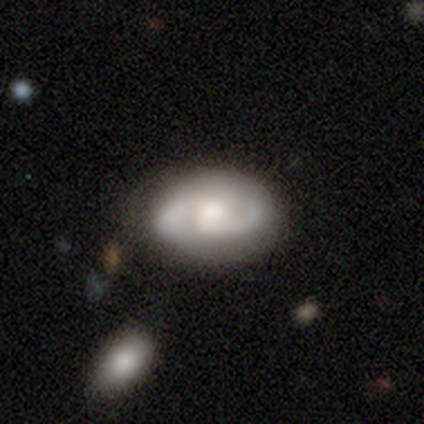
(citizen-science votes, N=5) smooth_or_featured: featured or disk (p=1.00)
disk_edge_on: no (p=0.80) [alt: yes p=0.20]
bar: weak (p=0.50) [tied with: no p=0.50]
has_spiral_arms: yes (p=1.00)
spiral_winding: medium (p=0.75) [alt: tight p=0.25]
spiral_arm_count: 2 (p=1.00)
bulge_size: moderate (p=0.75) [alt: large p=0.25]
merging: none (p=1.00)